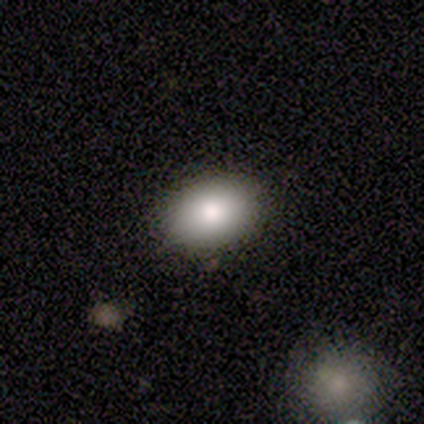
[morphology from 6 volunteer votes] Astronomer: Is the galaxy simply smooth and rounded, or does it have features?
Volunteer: smooth — 100%.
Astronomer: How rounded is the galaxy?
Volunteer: in between — 83%.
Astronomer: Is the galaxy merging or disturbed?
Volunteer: none — 100%.